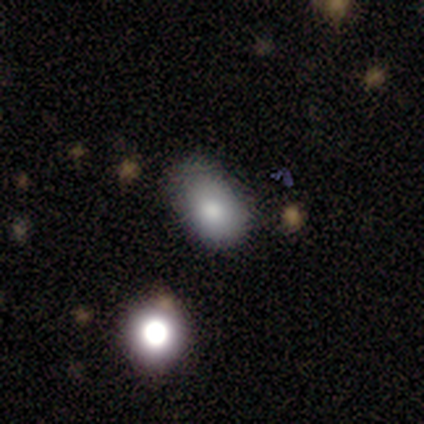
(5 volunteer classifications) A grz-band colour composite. It shows a smooth galaxy with no disk features (100%) that is in between round and cigar-shaped (80%). Merging: none (60%).